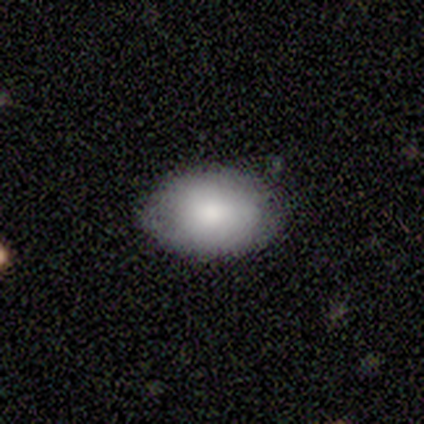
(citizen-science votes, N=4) Smooth or featured: smooth — 100%
How rounded: in between — 100%
Merging: minor disturbance — 75% (none — 25%)